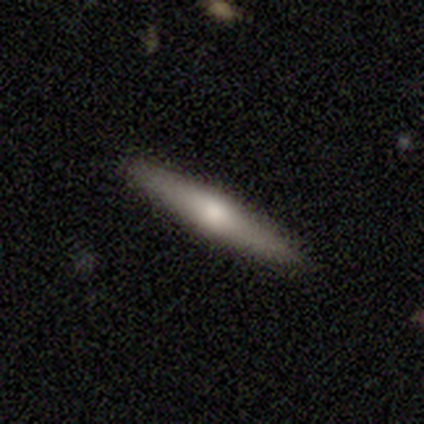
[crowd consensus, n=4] Morphology: type=smooth (50%, tied with featured or disk); roundness=cigar-shaped (100%); merging=none (100%).